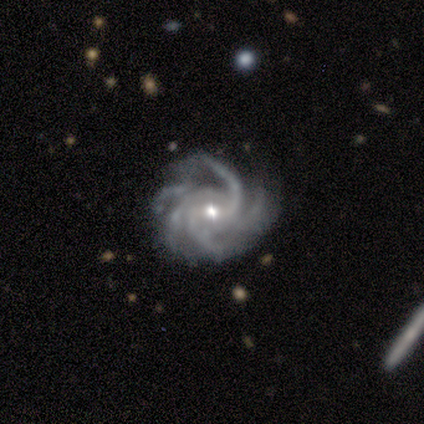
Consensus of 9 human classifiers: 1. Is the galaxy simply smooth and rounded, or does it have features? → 100% featured or disk, 0% smooth, 0% star or artifact.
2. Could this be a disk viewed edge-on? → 100% no, 0% yes.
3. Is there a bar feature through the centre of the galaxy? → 44% weak, 33% no, 22% strong.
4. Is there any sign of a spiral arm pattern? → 100% yes, 0% no.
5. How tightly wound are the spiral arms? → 67% tight, 22% medium, 11% loose.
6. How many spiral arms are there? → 56% more than 4, 22% 4, 11% 2, 11% 3, 0% 1, 0% can't tell.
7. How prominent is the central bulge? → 67% moderate, 33% small, 0% dominant, 0% large, 0% none.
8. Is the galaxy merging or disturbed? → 67% none, 22% major disturbance, 11% minor disturbance, 0% merger.